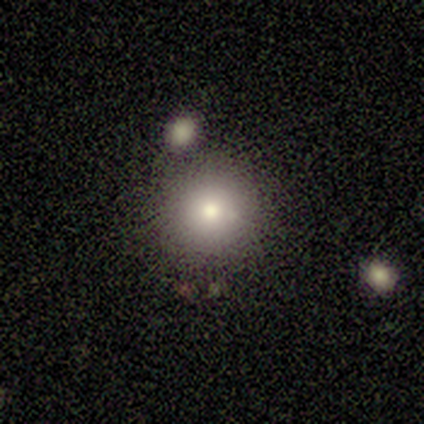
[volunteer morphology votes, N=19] A smooth galaxy with no disk features (79%) that is round (93%). Merging: none (83%).